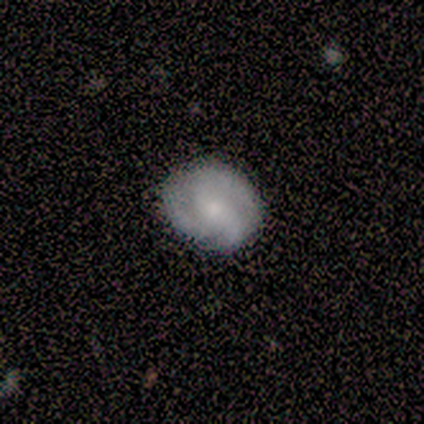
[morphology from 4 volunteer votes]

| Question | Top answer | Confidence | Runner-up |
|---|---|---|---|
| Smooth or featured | featured or disk | 75% | smooth (25%) |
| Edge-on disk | no | 100% | — |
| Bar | no | 67% | weak (33%) |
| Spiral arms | yes | 67% | no (33%) |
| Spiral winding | tight | 50% | tied: medium (50%) |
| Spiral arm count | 3 | 100% | — |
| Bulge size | small | 67% | moderate (33%) |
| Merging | none | 100% | — |